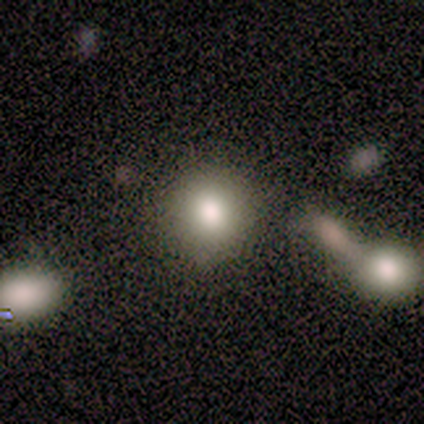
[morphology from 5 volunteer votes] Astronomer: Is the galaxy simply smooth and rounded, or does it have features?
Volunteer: smooth — 60% (runner-up: star or artifact, 40%).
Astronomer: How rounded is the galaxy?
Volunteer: round — 100%.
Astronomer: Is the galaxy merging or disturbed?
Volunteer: none — 67%.